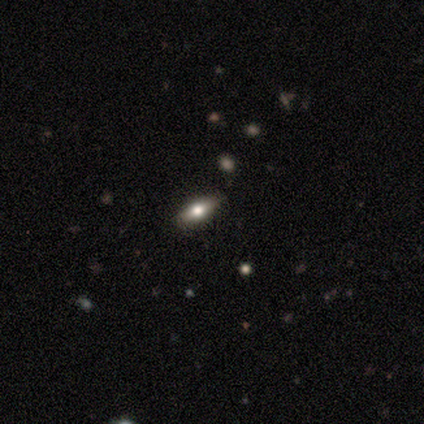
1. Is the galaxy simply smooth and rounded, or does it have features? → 75% featured or disk, 25% star or artifact, 0% smooth.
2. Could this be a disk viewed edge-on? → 100% yes, 0% no.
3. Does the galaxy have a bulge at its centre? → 100% rounded, 0% boxy, 0% none.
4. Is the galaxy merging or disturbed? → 100% none, 0% minor disturbance, 0% major disturbance, 0% merger.